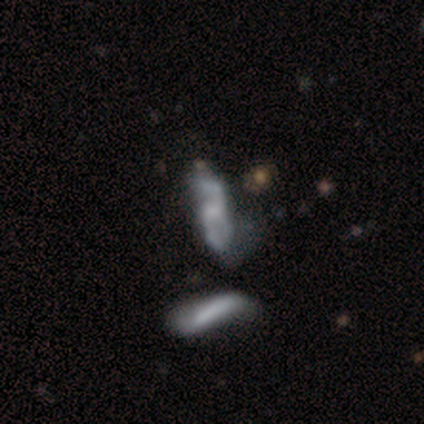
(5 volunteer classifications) Smooth or featured: featured or disk — 40% (tied with star or artifact — 40%)
Edge-on disk: no — 100%
Bar: no — 100%
Spiral arms: no — 100%
Bulge size: none — 100%
Merging: none — 33% (tied with major disturbance — 33%; merger — 33%)